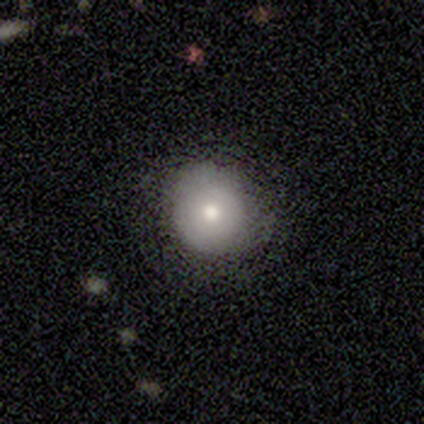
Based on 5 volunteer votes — smooth 80%, featured or disk 20%, star or artifact 0%. Down the decision tree: how rounded — round (100%); merging — none (100%).